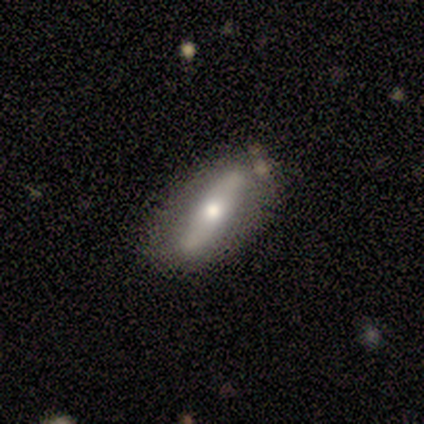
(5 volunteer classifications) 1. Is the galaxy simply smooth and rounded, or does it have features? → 60% smooth, 40% featured or disk, 0% star or artifact.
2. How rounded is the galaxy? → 67% in between, 33% cigar-shaped, 0% round.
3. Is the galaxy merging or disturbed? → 60% none, 40% minor disturbance, 0% major disturbance, 0% merger.